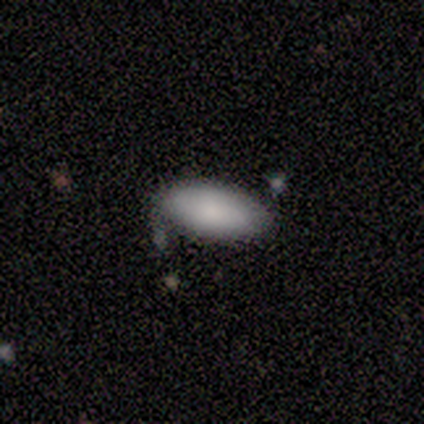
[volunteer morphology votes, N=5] A smooth galaxy with no disk features (80%) that is in between round and cigar-shaped (75%). Merging: none (100%).